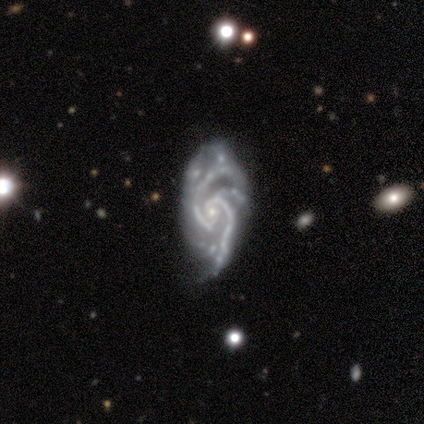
This is clearly a featured or disk galaxy (80%). It is clearly not viewed edge-on (100%). Bar: possibly no (50%). Spiral arm pattern: clearly yes (100%). Spiral arm count: possibly 3 (50%). Spiral winding: possibly medium (50%). Central bulge: possibly small (50%). Merging: possibly none (50%, tied with minor disturbance).